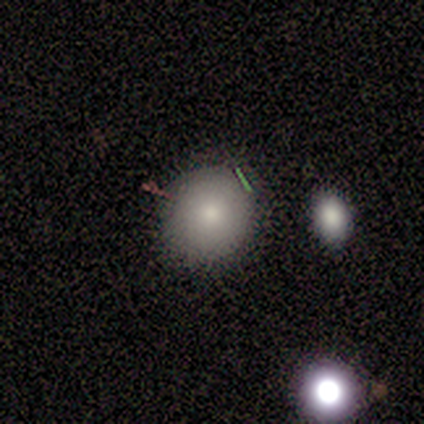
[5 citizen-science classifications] Smooth or featured: smooth — 80% (featured or disk — 20%)
How rounded: round — 75% (in between — 25%)
Merging: none — 60% (minor disturbance — 40%)